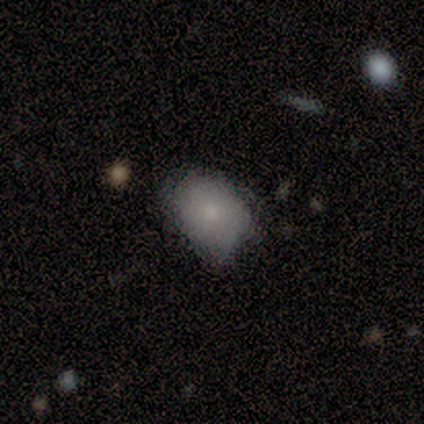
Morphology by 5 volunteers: A smooth galaxy with no disk features (80%) that is in between round and cigar-shaped (100%). Merging: minor disturbance (60%).